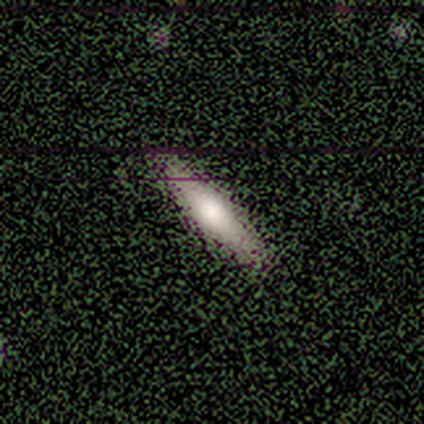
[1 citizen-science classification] A smooth galaxy with no disk features (100%) that is in between round and cigar-shaped (100%).

Vote fractions:
- Smooth or featured? smooth: 100% / featured or disk: 0% / star or artifact: 0%
- How rounded? in between: 100% / round: 0% / cigar-shaped: 0%
- Merging? none: 100% / minor disturbance: 0% / major disturbance: 0% / merger: 0%